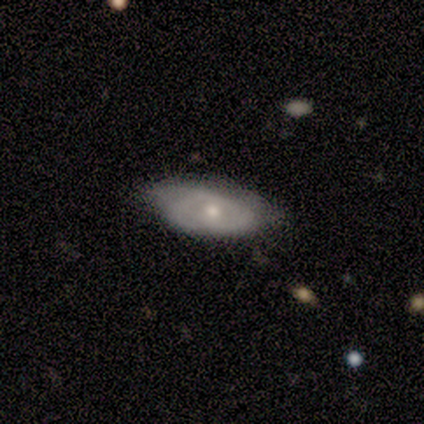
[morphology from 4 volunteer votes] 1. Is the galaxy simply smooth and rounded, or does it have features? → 50% smooth (tied), 50% featured or disk (tied), 0% star or artifact.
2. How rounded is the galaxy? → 100% in between, 0% round, 0% cigar-shaped.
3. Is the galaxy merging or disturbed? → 50% none (tied), 50% minor disturbance (tied), 0% major disturbance, 0% merger.